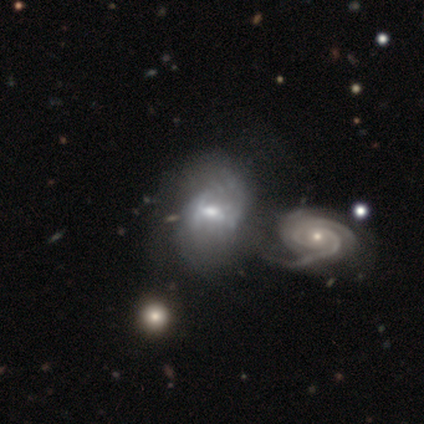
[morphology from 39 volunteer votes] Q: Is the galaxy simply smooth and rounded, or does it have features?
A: featured or disk — 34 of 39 (87%).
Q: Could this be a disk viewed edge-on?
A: no — 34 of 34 (100%).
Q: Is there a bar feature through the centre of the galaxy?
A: weak — 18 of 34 (53%).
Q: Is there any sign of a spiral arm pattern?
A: yes — 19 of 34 (56%).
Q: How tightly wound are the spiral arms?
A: medium — 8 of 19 (42%).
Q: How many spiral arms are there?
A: can't tell — 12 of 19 (63%).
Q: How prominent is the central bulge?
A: moderate — 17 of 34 (50%).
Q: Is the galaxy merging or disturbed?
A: merger — 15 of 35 (43%).